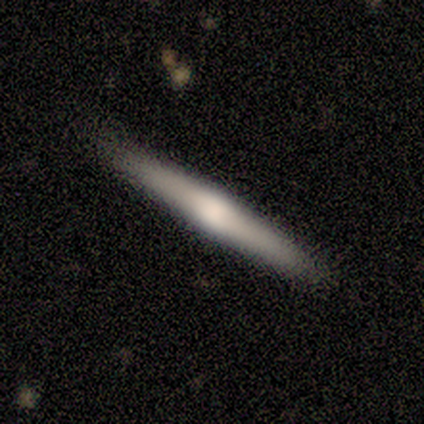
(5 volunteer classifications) smooth_or_featured: featured or disk (p=0.80) [alt: smooth p=0.20]
disk_edge_on: yes (p=1.00)
edge_on_bulge: rounded (p=0.75) [alt: boxy p=0.25]
merging: none (p=0.80) [alt: minor disturbance p=0.20]